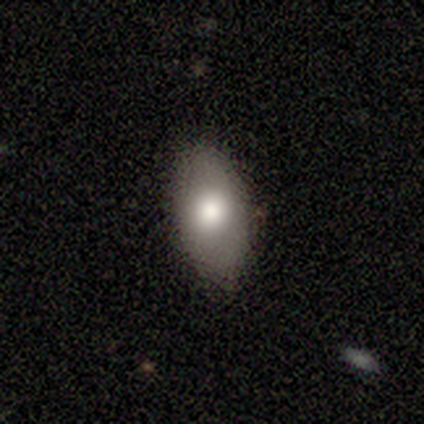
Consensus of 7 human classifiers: A smooth galaxy with no disk features (71%) that is in between round and cigar-shaped (100%). Merging: none (71%).